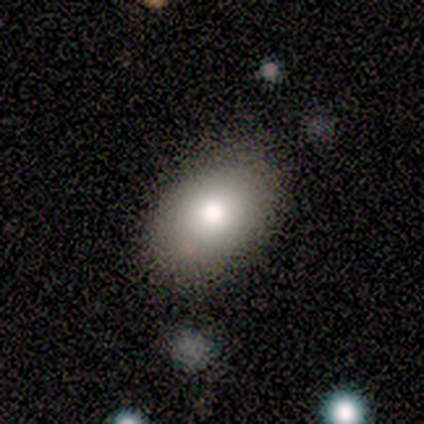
Smooth or featured? smooth (88%)
How rounded? in between (100%)
Merging? none (88%)